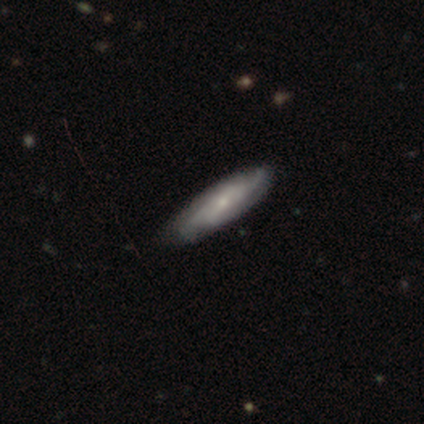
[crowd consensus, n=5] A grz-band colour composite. It shows a smooth galaxy with no disk features (60%) that is cigar-shaped (67%). Merging: none (100%).